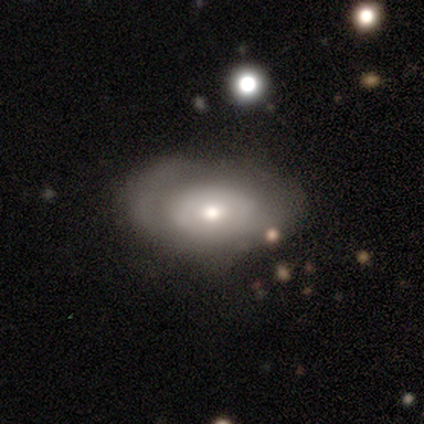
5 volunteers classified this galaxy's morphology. Volunteers were most divided on "merging" (2-way tie): none: 40%, major disturbance: 40%, minor disturbance: 20%, merger: 0%. More confident: how rounded — in between (100%); smooth or featured — smooth (60%).